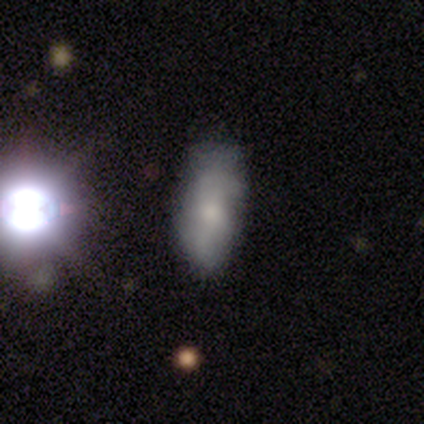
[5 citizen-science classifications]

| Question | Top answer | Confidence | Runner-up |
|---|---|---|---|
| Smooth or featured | smooth | 100% | — |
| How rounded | in between | 100% | — |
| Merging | none | 60% | minor disturbance (40%) |